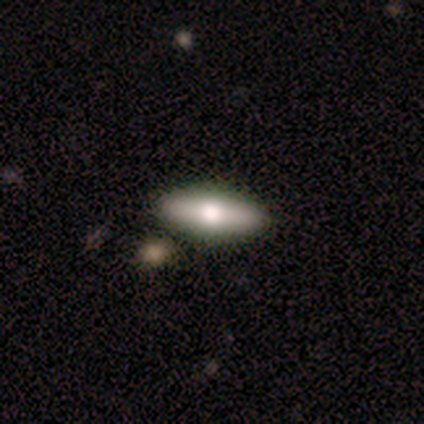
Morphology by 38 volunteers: This appears to be a smooth galaxy with no disk features (58%) that is in between round and cigar-shaped (50%). Merging: none (86%).